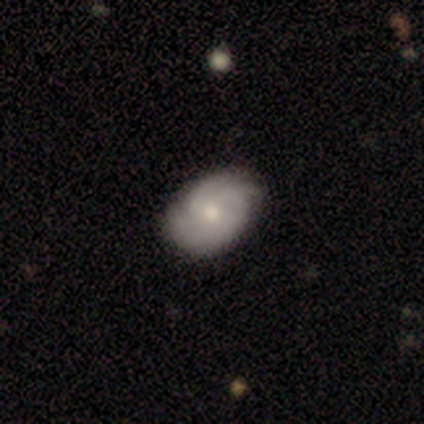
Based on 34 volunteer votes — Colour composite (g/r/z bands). It shows a featured or disk galaxy (56%) with no bar (89%), 3 (50%) tight (61%) spiral arms (100%) and a moderate central bulge (67%). Merging: none (79%).